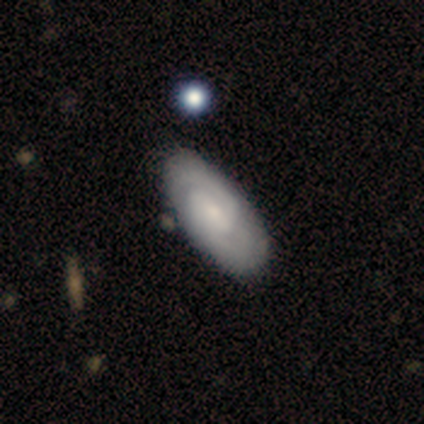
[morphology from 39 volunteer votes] featured or disk 74%, smooth 23%, star or artifact 3%. Down the decision tree: edge-on disk — no (97%); bar — weak (57%); spiral arms — yes (89%); spiral arm count — 2 (68%); spiral winding — medium (52%); bulge size — small (43%); merging — none (66%).